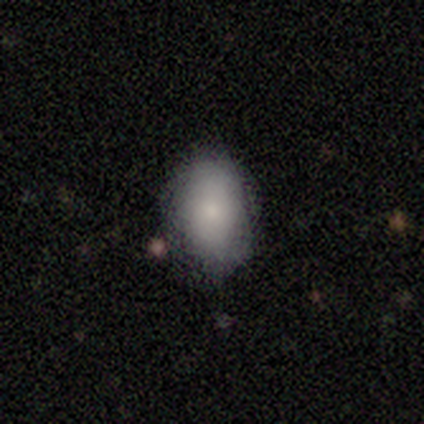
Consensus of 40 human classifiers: Volunteers were most divided on "merging": none: 73%, minor disturbance: 19%, major disturbance: 5%, merger: 3%. More confident: smooth or featured — smooth (88%); how rounded — in between (77%).